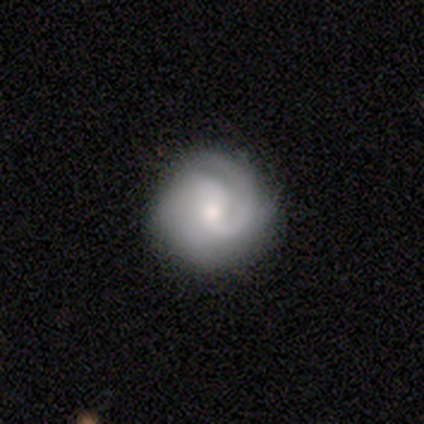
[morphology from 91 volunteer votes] smooth_or_featured: featured or disk (p=0.78) [alt: smooth p=0.20]
disk_edge_on: no (p=0.97) [alt: yes p=0.03]
bar: no (p=0.54) [alt: weak p=0.41]
has_spiral_arms: yes (p=0.96) [alt: no p=0.04]
spiral_winding: tight (p=0.55) [alt: medium p=0.29]
spiral_arm_count: 2 (p=0.50) [alt: 1 p=0.24]
bulge_size: small (p=0.54) [alt: moderate p=0.46]
merging: none (p=0.83) [alt: minor disturbance p=0.10]